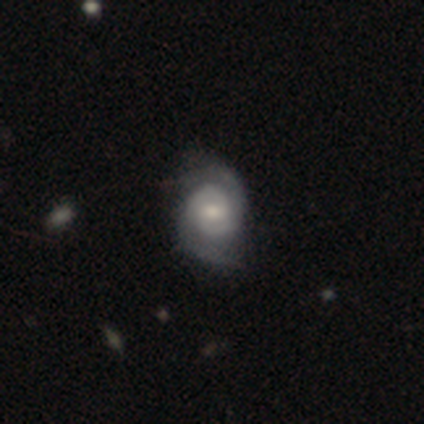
Overall: featured or disk (100%). Edge-on disk: no (100%). Bar: no (75%). Spiral arms: yes (100%). Spiral arm count: 2 (100%). Spiral winding: medium (50%; tight 25%). Bulge size: small (75%). Merging: none (75%).